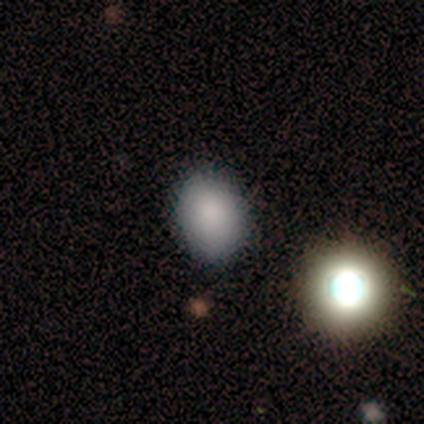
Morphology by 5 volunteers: A smooth galaxy with no disk features (100%) that is in between round and cigar-shaped (80%). Merging: none (100%).